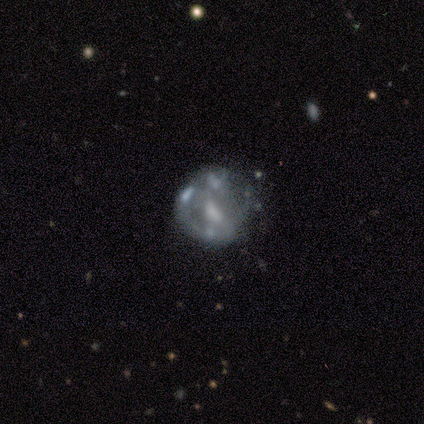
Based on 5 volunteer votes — A featured or disk galaxy (60%) with no bar (100%), no spiral arms (67%) and a moderate central bulge (67%). Merging: minor disturbance (33%, tied with major disturbance and merger).